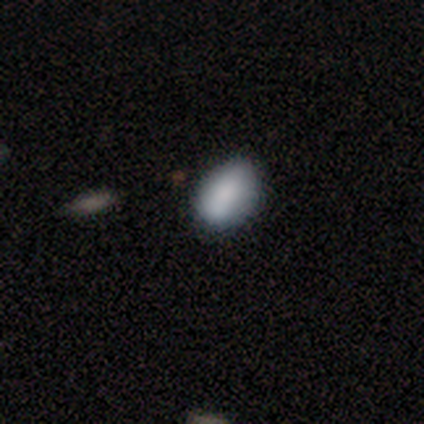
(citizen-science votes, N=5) smooth 60%, featured or disk 20%, star or artifact 20%. Down the decision tree: how rounded — in between (100%); merging — minor disturbance (50%).